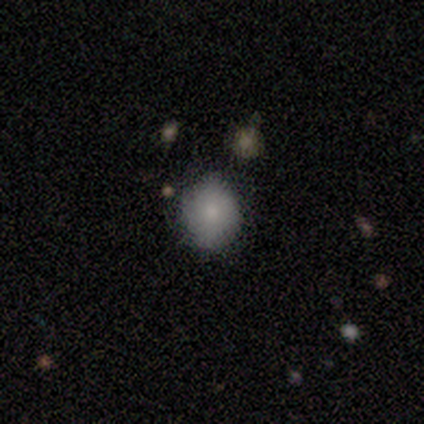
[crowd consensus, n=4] smooth_or_featured: smooth (p=1.00)
how_rounded: round (p=1.00)
merging: none (p=1.00)